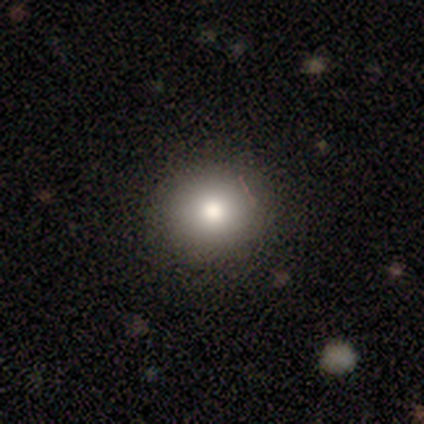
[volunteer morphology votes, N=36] Q: Smooth or featured?
A: smooth (81%); runner-up: featured or disk (11%)
Q: How rounded?
A: round (93%); runner-up: in between (7%)
Q: Merging?
A: none (88%); runner-up: minor disturbance (9%)